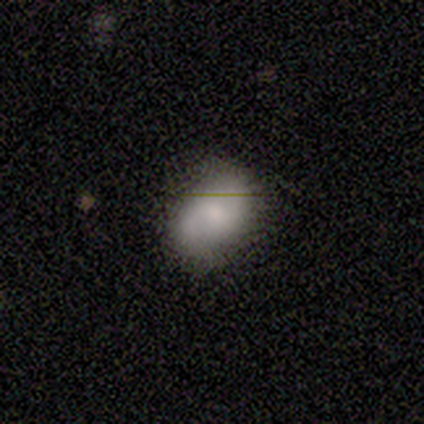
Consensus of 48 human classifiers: smooth_or_featured: smooth (p=0.60) [alt: featured or disk p=0.35]
how_rounded: in between (p=0.93) [alt: round p=0.07]
merging: none (p=0.80) [alt: minor disturbance p=0.11]